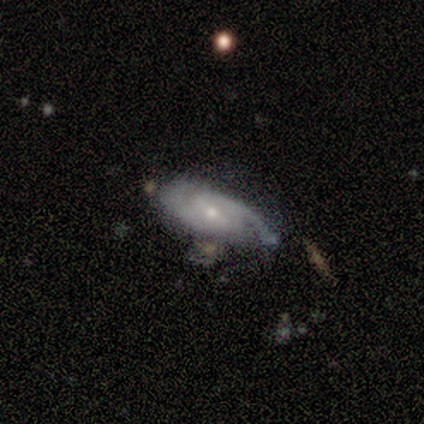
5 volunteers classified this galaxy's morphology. Overall: smooth (40%, tied with featured or disk). How rounded: round (50%, tied with in between). Merging: none (100%).